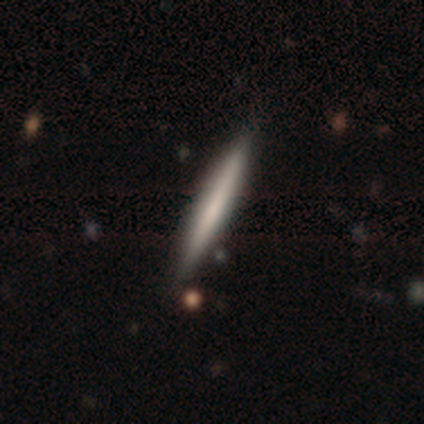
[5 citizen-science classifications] This appears to be a featured or disk galaxy (60%) viewed edge-on (100%) with no central bulge (67%). Merging: none (100%).